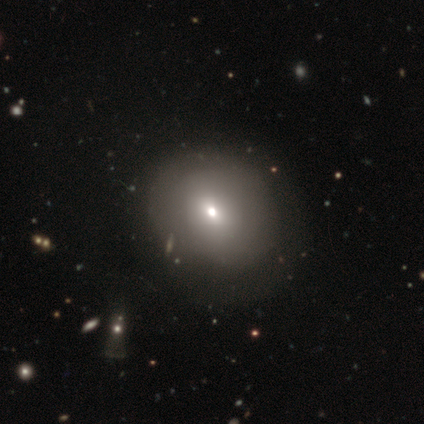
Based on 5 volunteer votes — This is likely a smooth galaxy (60%). How rounded: likely round (67%). Merging: clearly none (100%).